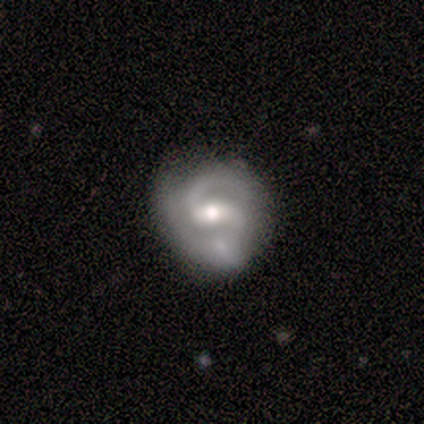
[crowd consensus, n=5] A featured or disk galaxy (100%) with a weak bar (60%), 2 (100%) medium (60%) spiral arms (100%) and a small central bulge (60%). Merging: none (60%).